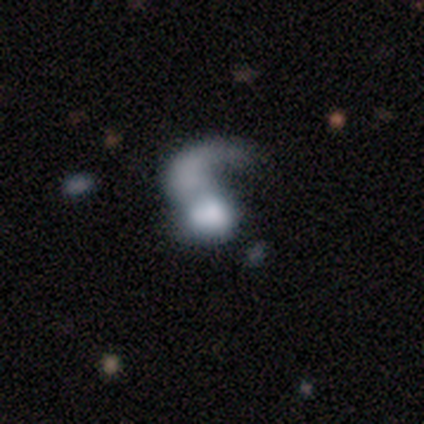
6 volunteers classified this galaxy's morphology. Overall: featured or disk (67%; smooth 33%). Edge-on disk: no (100%). Bar: no (100%). Spiral arms: yes (75%). Spiral arm count: 1 (100%). Spiral winding: loose (67%; medium 33%). Bulge size: dominant (50%; large 25%). Merging: merger (67%; none 33%).